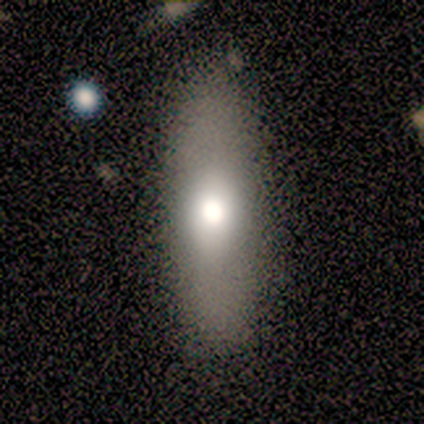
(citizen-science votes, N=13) smooth 77%, featured or disk 23%, star or artifact 0%. Down the decision tree: how rounded — in between (50%, tied with cigar-shaped); merging — none (77%).